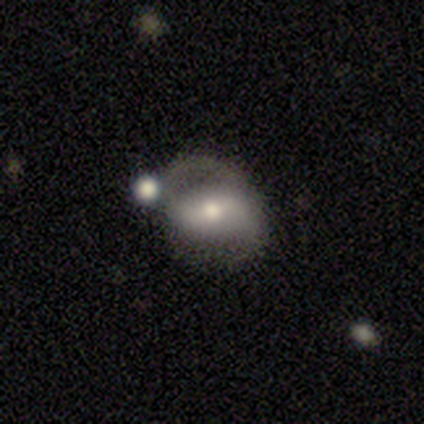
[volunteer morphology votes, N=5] smooth-or-featured: featured or disk: 60% | smooth: 40% | star or artifact: 0%
  disk-edge-on: no: 100% | yes: 0%
    bar: strong: 33% (tied) | weak: 33% (tied) | no: 33% (tied)
    has-spiral-arms: yes: 67% | no: 33%
      spiral-winding: loose: 100% | tight: 0% | medium: 0%
      spiral-arm-count: 2: 100% | 1: 0% | 3: 0% | 4: 0% | more than 4: 0% | can't tell: 0%
    bulge-size: moderate: 67% | dominant: 33% | large: 0% | small: 0% | none: 0%
  merging: minor disturbance: 40% (tied) | merger: 40% (tied) | none: 20% | major disturbance: 0%